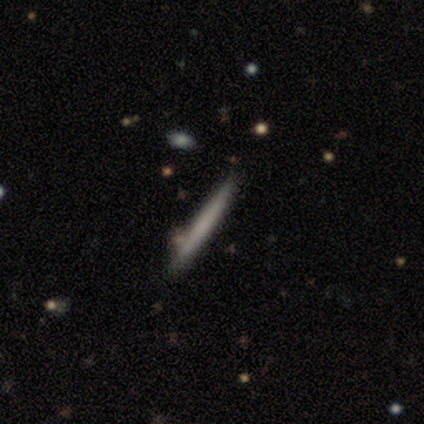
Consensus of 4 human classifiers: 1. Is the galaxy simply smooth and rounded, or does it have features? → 100% smooth, 0% featured or disk, 0% star or artifact.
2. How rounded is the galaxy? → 100% cigar-shaped, 0% round, 0% in between.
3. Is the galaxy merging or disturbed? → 100% none, 0% minor disturbance, 0% major disturbance, 0% merger.